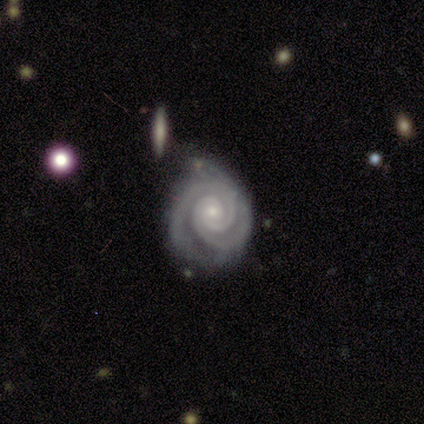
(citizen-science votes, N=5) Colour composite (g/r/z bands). It shows a featured or disk galaxy (100%) with no bar (80%), 2 (60%) tight (100%) spiral arms (100%) and a small central bulge (80%). Merging: none (40%, tied with minor disturbance).